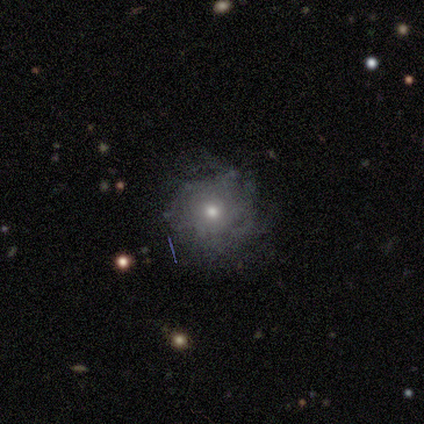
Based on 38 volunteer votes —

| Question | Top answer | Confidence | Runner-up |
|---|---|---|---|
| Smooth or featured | featured or disk | 53% | smooth (37%) |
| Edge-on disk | no | 90% | yes (10%) |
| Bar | no | 100% | — |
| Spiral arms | no | 61% | yes (39%) |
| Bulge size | moderate | 61% | small (28%) |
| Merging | none | 68% | minor disturbance (15%) |